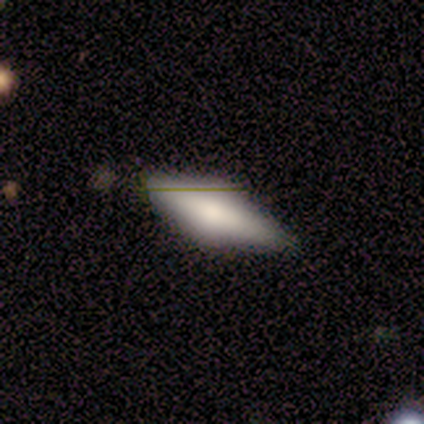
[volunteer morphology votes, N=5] A smooth galaxy with no disk features (80%) that is in between round and cigar-shaped (75%). Merging: none (100%).